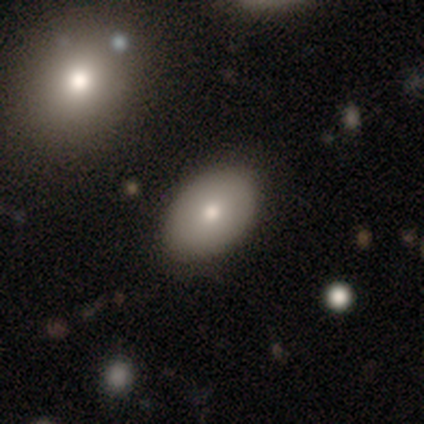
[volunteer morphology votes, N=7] A smooth galaxy with no disk features (43%, tied with featured or disk) that is in between round and cigar-shaped (100%). Merging: none (67%).